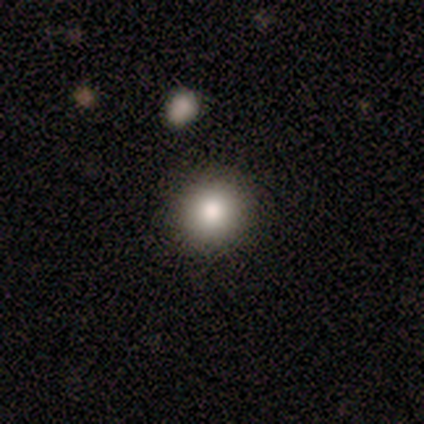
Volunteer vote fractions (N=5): Overall: smooth (80%). How rounded: round (100%). Merging: none (100%).